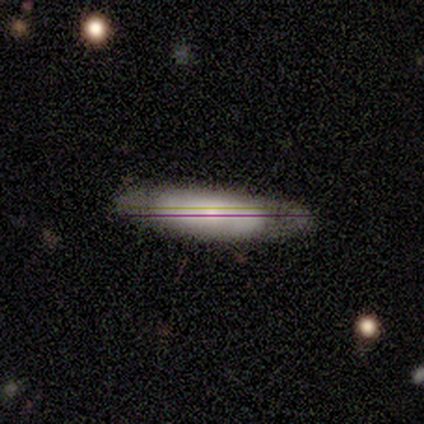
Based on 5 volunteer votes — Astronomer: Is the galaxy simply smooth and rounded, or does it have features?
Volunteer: smooth — 60%.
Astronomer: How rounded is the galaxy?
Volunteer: cigar-shaped — 67%.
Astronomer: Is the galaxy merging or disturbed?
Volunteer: none — 50%, tied with minor disturbance at 50%.